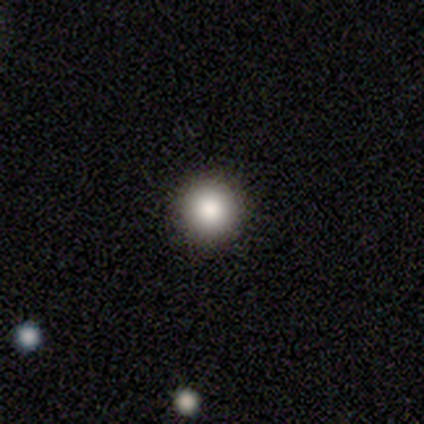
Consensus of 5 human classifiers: smooth 80%, star or artifact 20%, featured or disk 0%. Down the decision tree: how rounded — round (100%); merging — none (100%).